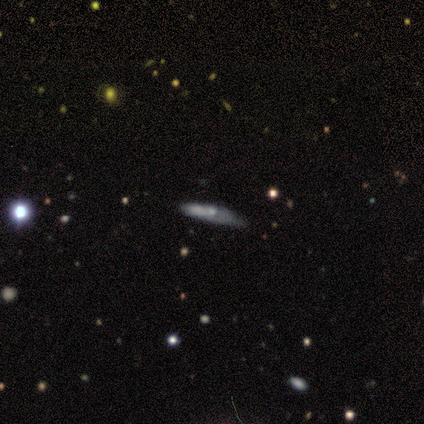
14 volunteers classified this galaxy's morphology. This appears to be a featured or disk galaxy (57%) viewed edge-on (88%) with a rounded central bulge (57%). Merging: none (69%).